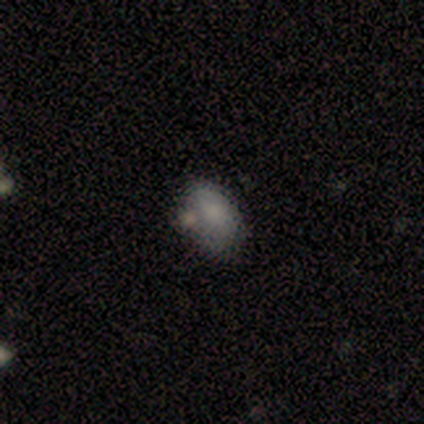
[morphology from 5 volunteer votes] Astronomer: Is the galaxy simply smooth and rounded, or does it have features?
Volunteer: smooth — 60% (runner-up: star or artifact, 40%).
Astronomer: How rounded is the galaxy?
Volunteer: in between — 100%.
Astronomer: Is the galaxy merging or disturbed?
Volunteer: none — 100%.